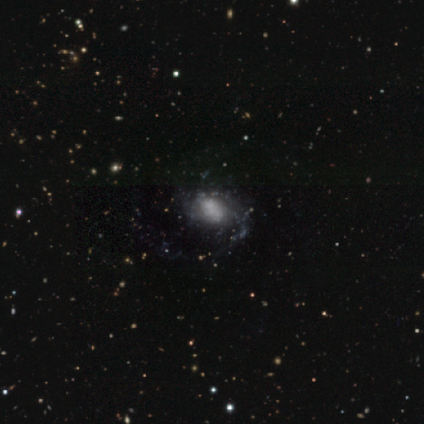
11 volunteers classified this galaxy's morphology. smooth_or_featured: featured or disk (p=0.91) [alt: smooth p=0.09]
disk_edge_on: no (p=0.90) [alt: yes p=0.10]
bar: no (p=0.67) [alt: weak p=0.22]
has_spiral_arms: yes (p=0.78) [alt: no p=0.22]
spiral_winding: loose (p=0.43) [alt: tight p=0.29]
spiral_arm_count: can't tell (p=0.57) [alt: 1 p=0.14]
bulge_size: none (p=0.44) [alt: large p=0.22]
merging: none (p=0.55) [alt: major disturbance p=0.27]